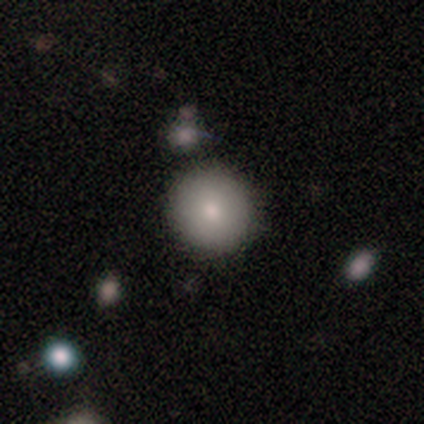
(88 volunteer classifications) smooth-or-featured: smooth: 77% | featured or disk: 12% | star or artifact: 10%
  how-rounded: round: 94% | in between: 6% | cigar-shaped: 0%
  merging: none: 86% | minor disturbance: 5% | major disturbance: 5% | merger: 4%